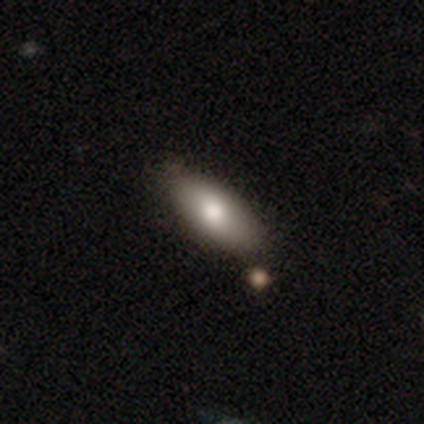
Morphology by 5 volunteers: smooth-or-featured: smooth: 60% | featured or disk: 20% | star or artifact: 20%
  how-rounded: in between: 100% | round: 0% | cigar-shaped: 0%
  merging: none: 75% | minor disturbance: 25% | major disturbance: 0% | merger: 0%